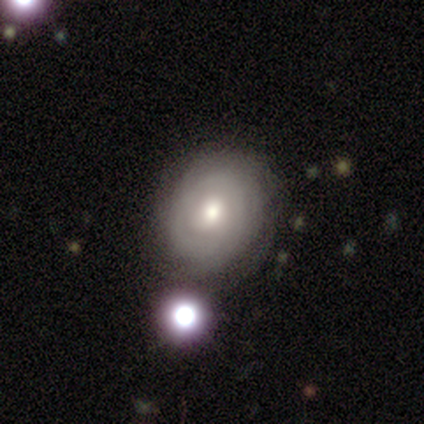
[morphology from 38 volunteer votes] smooth_or_featured: featured or disk (p=0.76) [alt: smooth p=0.21]
disk_edge_on: no (p=0.86) [alt: yes p=0.14]
bar: no (p=0.80) [alt: weak p=0.20]
has_spiral_arms: yes (p=0.68) [alt: no p=0.32]
spiral_winding: tight (p=0.71) [alt: medium p=0.24]
spiral_arm_count: can't tell (p=0.59) [alt: 2 p=0.12]
bulge_size: moderate (p=0.72) [alt: small p=0.20]
merging: none (p=0.73) [alt: merger p=0.14]